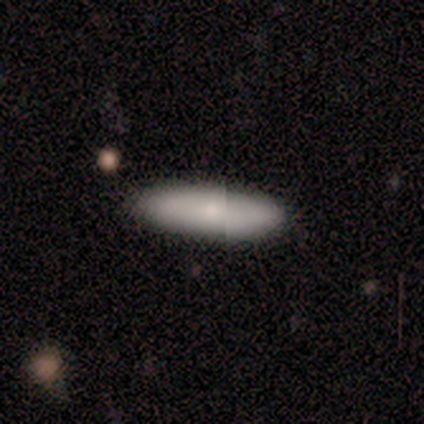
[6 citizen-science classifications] Q: Smooth or featured?
A: smooth (83%); runner-up: featured or disk (17%)
Q: How rounded?
A: in between (60%); runner-up: cigar-shaped (40%)
Q: Merging?
A: none (83%); runner-up: minor disturbance (17%)